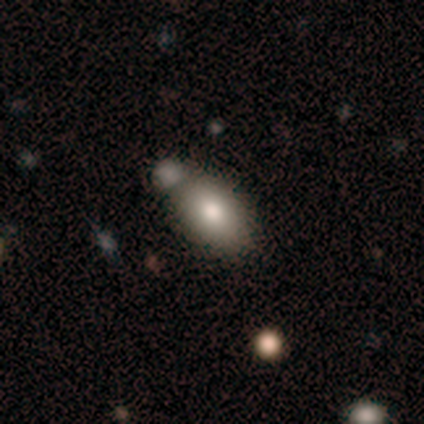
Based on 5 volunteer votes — Overall: smooth (80%). How rounded: in between (75%). Merging: merger (50%; none 25%).